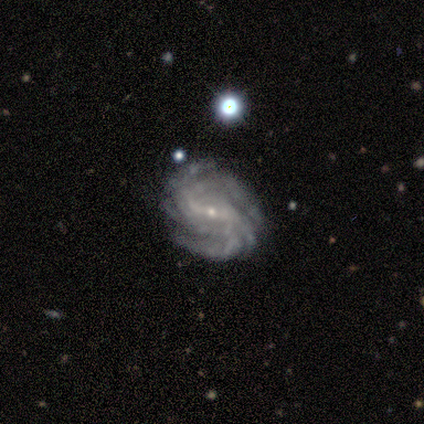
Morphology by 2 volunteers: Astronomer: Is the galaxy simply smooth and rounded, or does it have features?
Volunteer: featured or disk — 100%.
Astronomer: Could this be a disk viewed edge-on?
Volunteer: no — 100%.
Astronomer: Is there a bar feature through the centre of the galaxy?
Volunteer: strong — 50%, tied with no at 50%.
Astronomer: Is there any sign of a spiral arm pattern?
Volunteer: yes — 100%.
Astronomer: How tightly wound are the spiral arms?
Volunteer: tight — 50%, tied with medium at 50%.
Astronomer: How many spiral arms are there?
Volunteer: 3 — 50%, tied with more than 4 at 50%.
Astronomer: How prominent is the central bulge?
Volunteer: small — 100%.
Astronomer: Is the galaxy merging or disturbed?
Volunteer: none — 50%, tied with minor disturbance at 50%.